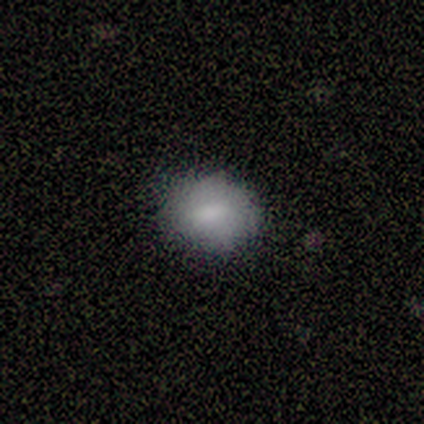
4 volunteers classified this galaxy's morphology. Q: Smooth or featured?
A: smooth (100%)
Q: How rounded?
A: round (50%); tied with: in between (50%)
Q: Merging?
A: none (100%)